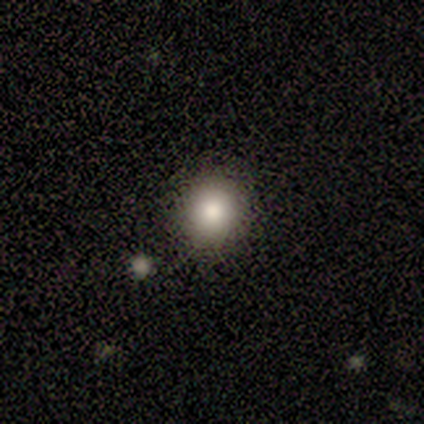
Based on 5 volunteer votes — A smooth galaxy with no disk features (80%) that is round (100%). Merging: none (75%).